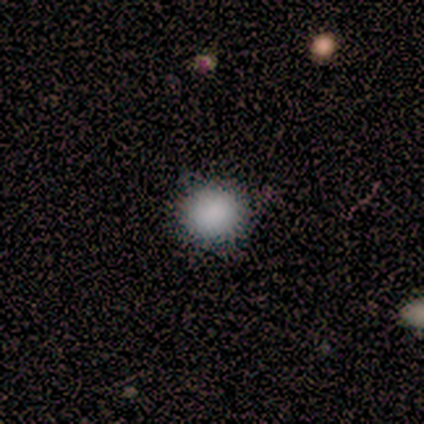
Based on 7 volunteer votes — Q: Smooth or featured?
A: smooth (71%); runner-up: featured or disk (14%)
Q: How rounded?
A: round (100%)
Q: Merging?
A: none (83%); runner-up: merger (17%)